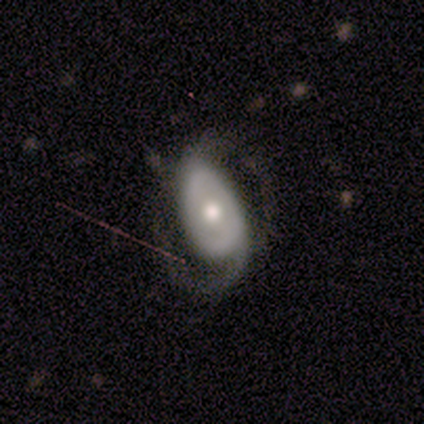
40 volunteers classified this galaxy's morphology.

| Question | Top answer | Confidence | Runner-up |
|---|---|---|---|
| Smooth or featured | featured or disk | 90% | smooth (5%) |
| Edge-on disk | no | 97% | yes (3%) |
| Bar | no | 71% | strong (20%) |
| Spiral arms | yes | 97% | no (3%) |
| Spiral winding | medium | 56% | tight (35%) |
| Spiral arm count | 2 | 91% | can't tell (6%) |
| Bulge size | moderate | 80% | large (11%) |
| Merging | none | 66% | minor disturbance (21%) |